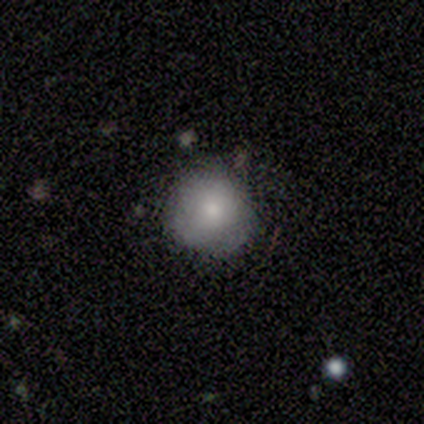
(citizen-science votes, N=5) smooth 80%, featured or disk 20%, star or artifact 0%. Down the decision tree: how rounded — round (75%); merging — none (60%).